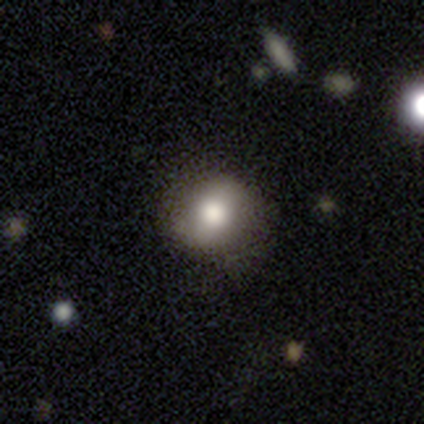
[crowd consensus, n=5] Volunteers were most divided on "smooth or featured": smooth: 60%, featured or disk: 20%, star or artifact: 20%. More confident: how rounded — round (100%); merging — none (100%).